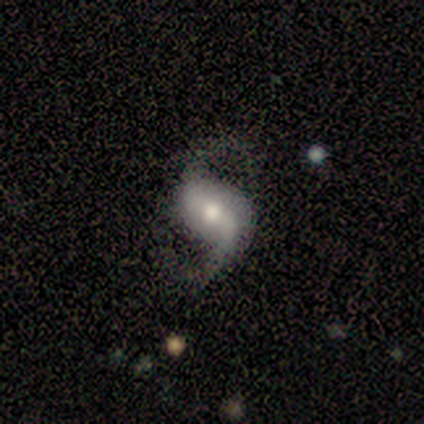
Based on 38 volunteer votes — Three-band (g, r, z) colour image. It shows a featured or disk galaxy (92%) with a weak bar (61%), 2 (84%) loose (78%) spiral arms (97%) and a moderate central bulge (48%). Merging: none (70%).